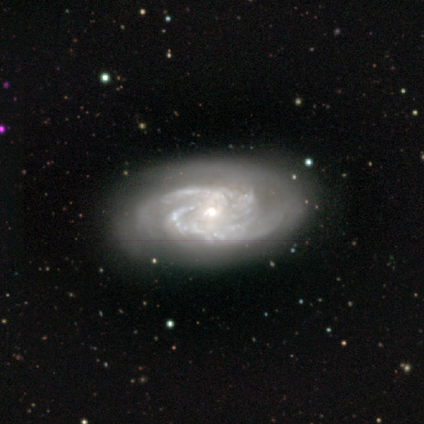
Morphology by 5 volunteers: type=featured or disk (100%); edge-on=no (100%); bar=no (80%); spiral arms=yes (100%); winding=tight (40%, tied with medium); arm count=2 (60%); bulge=moderate (80%); merging=none (100%).